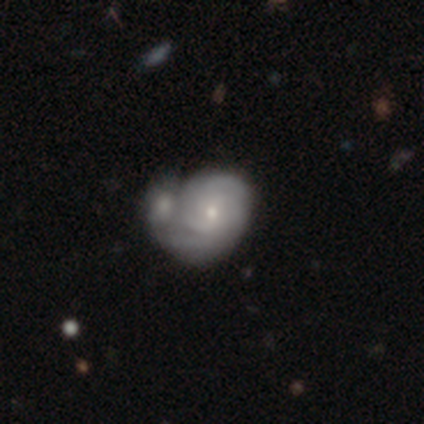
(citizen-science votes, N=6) Smooth or featured? featured or disk (83%)
Edge-on disk? no (100%)
Bar? no (60%)
Spiral arms? yes (100%)
Spiral winding? tight (60%)
Spiral arm count? 2 (40%, tied with can't tell)
Bulge size? moderate (100%)
Merging? merger (100%)